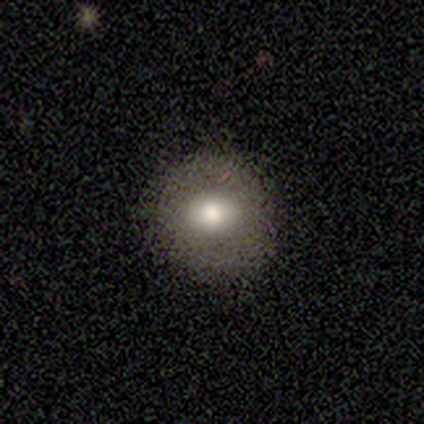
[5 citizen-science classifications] Smooth or featured? smooth (60%)
How rounded? round (100%)
Merging? none (100%)